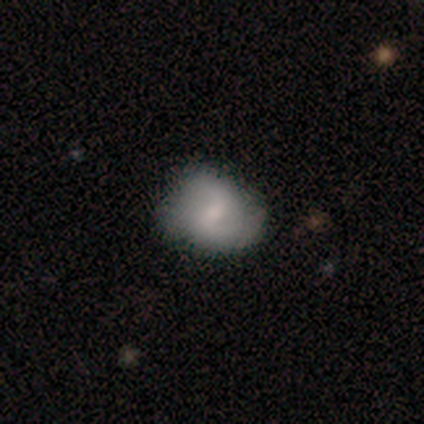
Morphology: type=smooth (48%, tied with featured or disk); roundness=round (58%); merging=none (34%).